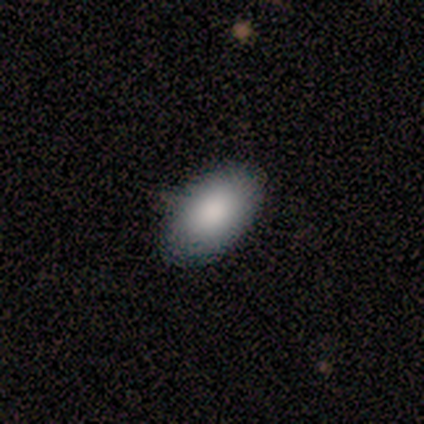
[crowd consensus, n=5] smooth 100%, featured or disk 0%, star or artifact 0%. Down the decision tree: how rounded — in between (100%); merging — none (80%).